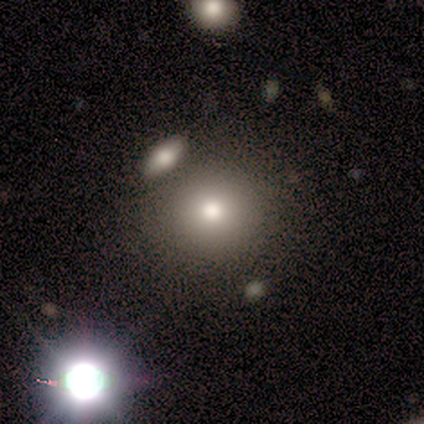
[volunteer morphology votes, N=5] A smooth galaxy with no disk features (40%, tied with featured or disk) that is round (100%).

Vote fractions:
- Smooth or featured? smooth: 40% (tied) / featured or disk: 40% (tied) / star or artifact: 20%
- How rounded? round: 100% / in between: 0% / cigar-shaped: 0%
- Merging? none: 100% / minor disturbance: 0% / major disturbance: 0% / merger: 0%